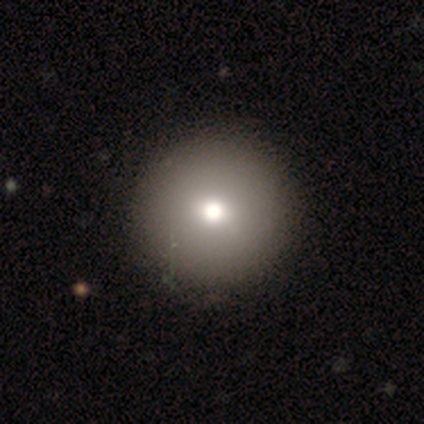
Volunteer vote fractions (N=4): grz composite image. It shows a smooth galaxy with no disk features (50%, tied with featured or disk) that is round (100%). Merging: none (100%).